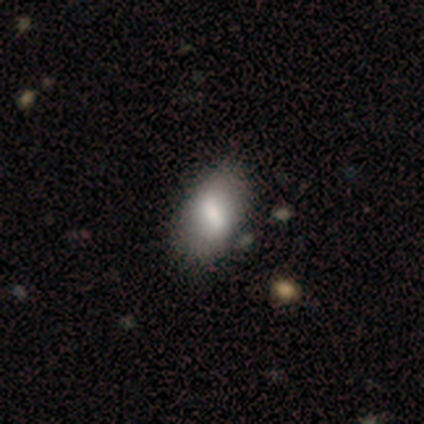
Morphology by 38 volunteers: A smooth galaxy with no disk features (79%) that is in between round and cigar-shaped (93%).

Vote fractions:
- Smooth or featured? smooth: 79% / featured or disk: 18% / star or artifact: 3%
- How rounded? in between: 93% / cigar-shaped: 7% / round: 0%
- Merging? none: 54% / minor disturbance: 11% / major disturbance: 5% / merger: 3%